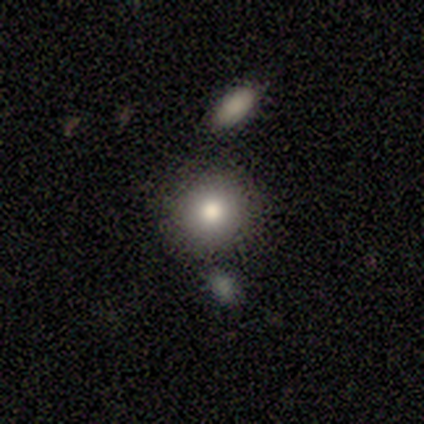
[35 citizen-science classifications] Smooth or featured?
  - smooth: 77% *
  - featured or disk: 11%
  - star or artifact: 11%
How rounded?
  - round: 93% *
  - in between: 7%
  - cigar-shaped: 0%
Merging?
  - none: 90% *
  - merger: 6%
  - minor disturbance: 3%
  - major disturbance: 0%